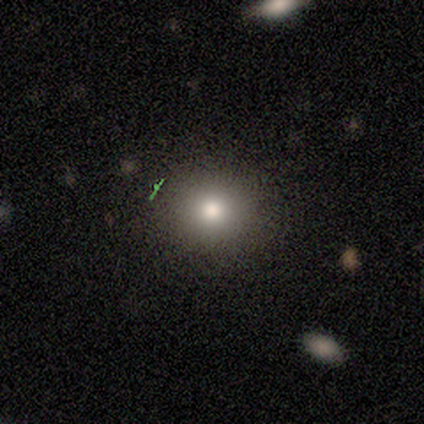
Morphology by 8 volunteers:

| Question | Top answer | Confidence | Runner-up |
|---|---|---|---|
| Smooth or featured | smooth | 62% | featured or disk (25%) |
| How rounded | round | 80% | in between (20%) |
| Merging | none | 100% | — |